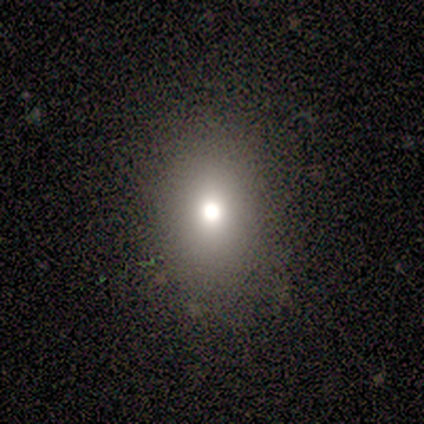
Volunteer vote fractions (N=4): Q: Smooth or featured?
A: smooth (50%); runner-up: featured or disk (25%)
Q: How rounded?
A: in between (100%)
Q: Merging?
A: none (100%)